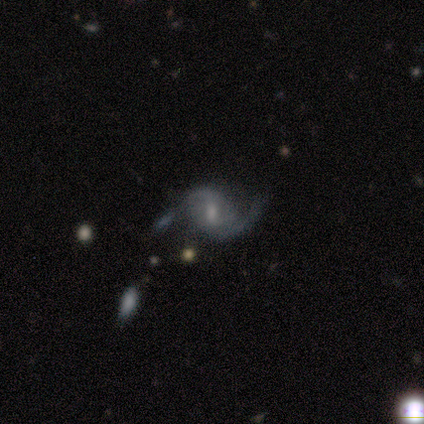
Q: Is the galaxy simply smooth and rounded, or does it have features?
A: featured or disk — 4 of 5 (80%).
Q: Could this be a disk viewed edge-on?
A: no — 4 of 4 (100%).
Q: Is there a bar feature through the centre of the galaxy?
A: weak — 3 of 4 (75%).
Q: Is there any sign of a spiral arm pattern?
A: yes — 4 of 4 (100%).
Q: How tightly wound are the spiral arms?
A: medium — 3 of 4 (75%).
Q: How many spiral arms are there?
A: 2 — 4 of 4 (100%).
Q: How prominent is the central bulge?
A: small — 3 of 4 (75%).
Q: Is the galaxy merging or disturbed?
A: none — 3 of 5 (60%).